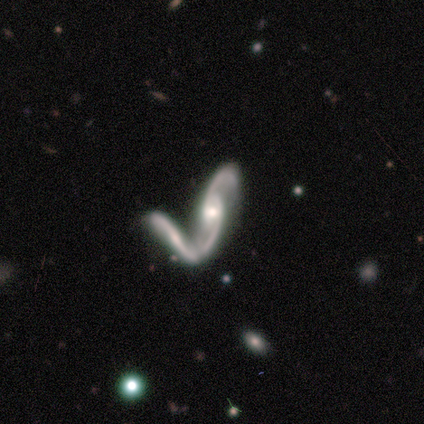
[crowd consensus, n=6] Smooth or featured?
  - featured or disk: 83% *
  - star or artifact: 17%
  - smooth: 0%
Edge-on disk?
  - no: 100% *
  - yes: 0%
Bar?
  - strong: 40% * (tied)
  - no: 40% * (tied)
  - weak: 20%
Spiral arms?
  - yes: 100% *
  - no: 0%
Spiral winding?
  - loose: 60% *
  - medium: 40%
  - tight: 0%
Spiral arm count?
  - 2: 100% *
  - 1: 0%
  - 3: 0%
  - 4: 0%
  - more than 4: 0%
  - can't tell: 0%
Bulge size?
  - moderate: 100% *
  - dominant: 0%
  - large: 0%
  - small: 0%
  - none: 0%
Merging?
  - minor disturbance: 40% * (tied)
  - merger: 40% * (tied)
  - major disturbance: 20%
  - none: 0%